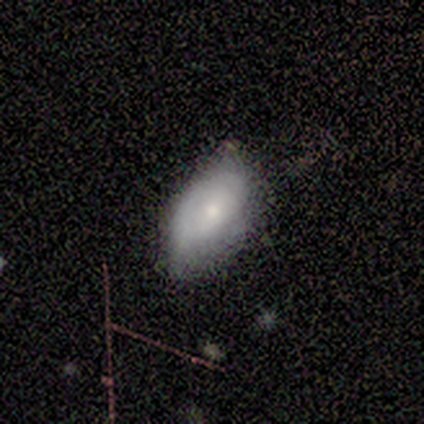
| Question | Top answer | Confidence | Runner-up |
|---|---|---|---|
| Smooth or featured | smooth | 100% | — |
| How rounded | in between | 75% | cigar-shaped (25%) |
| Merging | none | 75% | minor disturbance (25%) |